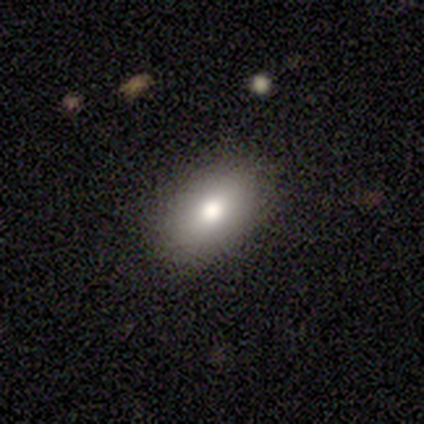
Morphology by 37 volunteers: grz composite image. It shows a smooth galaxy with no disk features (86%) that is in between round and cigar-shaped (94%). Merging: none (85%).